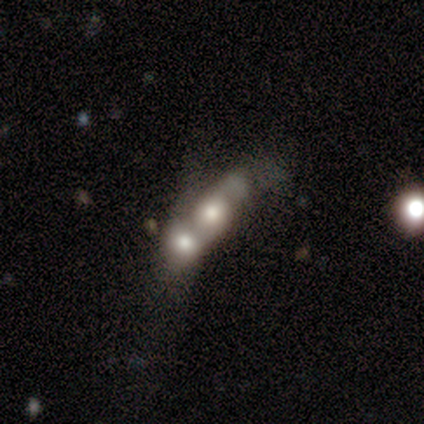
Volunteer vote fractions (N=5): Smooth or featured? featured or disk (60%)
Edge-on disk? no (100%)
Bar? no (100%)
Spiral arms? no (100%)
Bulge size? large (100%)
Merging? merger (75%)